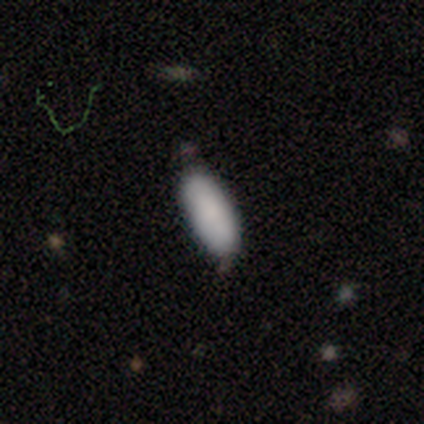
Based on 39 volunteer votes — Smooth or featured? smooth (85%)
How rounded? in between (67%)
Merging? none (80%)